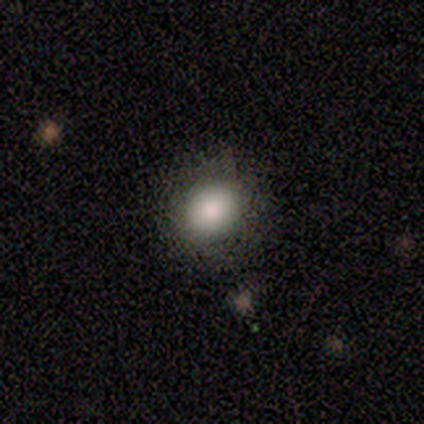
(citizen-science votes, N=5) Overall: smooth (100%). How rounded: round (80%). Merging: none (80%).